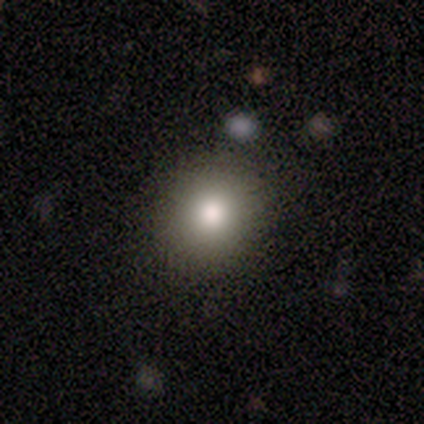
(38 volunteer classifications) Volunteers were most divided on "smooth or featured": smooth: 74%, star or artifact: 21%, featured or disk: 5%. More confident: how rounded — round (89%); merging — none (73%).